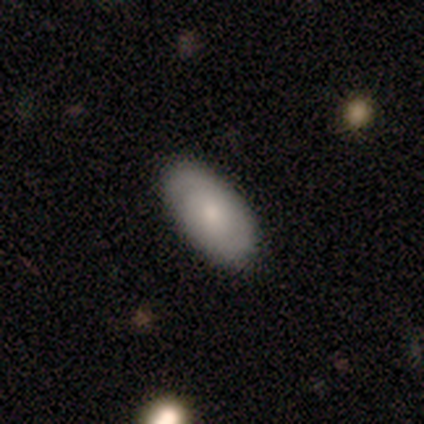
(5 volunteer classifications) This is likely a smooth galaxy (60%). How rounded: clearly in between (100%). Merging: clearly none (80%).